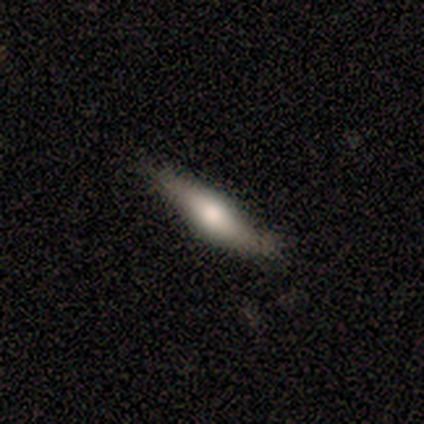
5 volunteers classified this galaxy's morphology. This appears to be a smooth galaxy with no disk features (80%) that is cigar-shaped (75%). Merging: minor disturbance (60%).